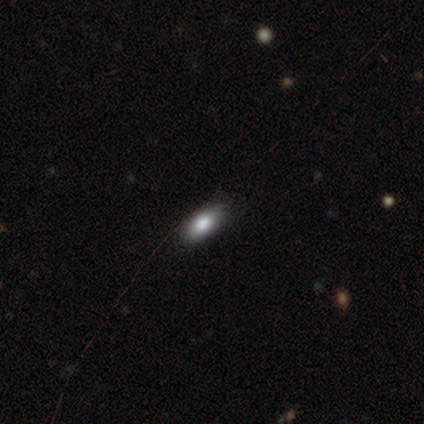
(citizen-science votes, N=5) Volunteers were most divided on "smooth or featured" (2-way tie): smooth: 40%, featured or disk: 40%, star or artifact: 20%. More confident: how rounded — in between (100%); merging — none (100%).